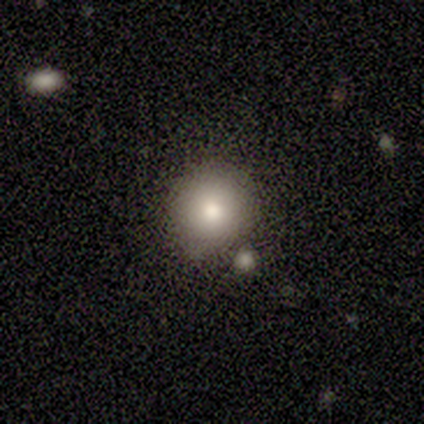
Smooth or featured? smooth (50%, tied with star or artifact)
How rounded? round (50%, tied with in between)
Merging? none (50%, tied with merger)